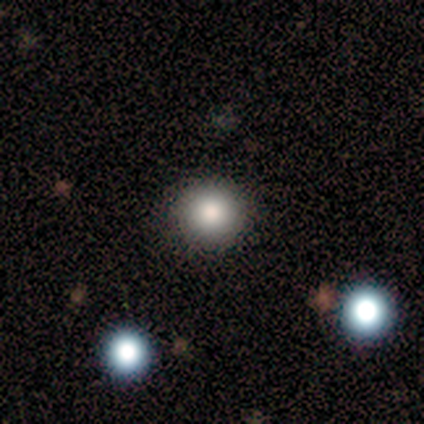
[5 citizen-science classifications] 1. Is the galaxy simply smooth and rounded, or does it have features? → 100% smooth, 0% featured or disk, 0% star or artifact.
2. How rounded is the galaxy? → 80% round, 20% in between, 0% cigar-shaped.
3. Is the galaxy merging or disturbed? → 60% minor disturbance, 40% none, 0% major disturbance, 0% merger.